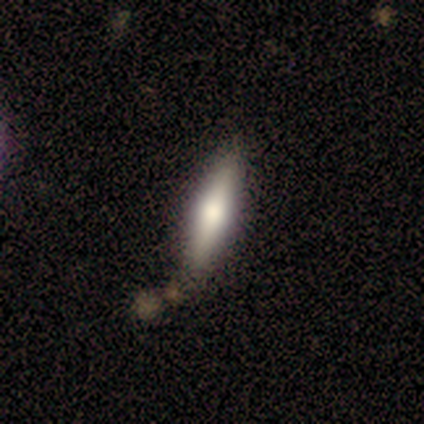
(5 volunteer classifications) Smooth or featured?
  - smooth: 80% *
  - featured or disk: 20%
  - star or artifact: 0%
How rounded?
  - cigar-shaped: 75% *
  - in between: 25%
  - round: 0%
Merging?
  - none: 80% *
  - minor disturbance: 20%
  - major disturbance: 0%
  - merger: 0%